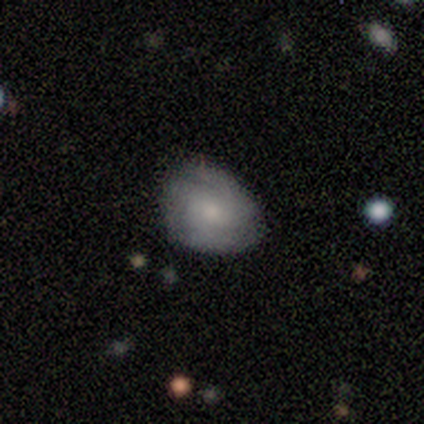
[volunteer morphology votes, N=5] Smooth or featured: featured or disk — 60% (smooth — 40%)
Edge-on disk: no — 100%
Bar: no — 100%
Spiral arms: yes — 67% (no — 33%)
Spiral winding: tight — 50% (tied with medium — 50%)
Spiral arm count: 3 — 50% (tied with can't tell — 50%)
Bulge size: small — 100%
Merging: none — 60% (minor disturbance — 40%)